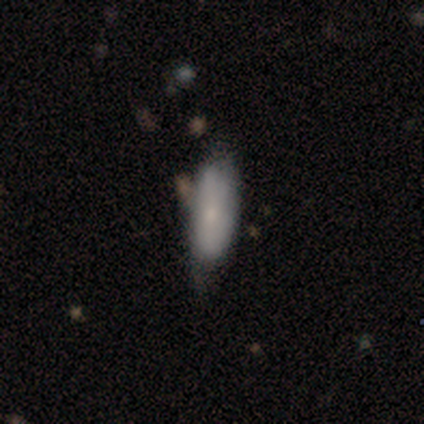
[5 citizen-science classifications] Smooth or featured? smooth (60%)
How rounded? in between (67%)
Merging? none (50%)